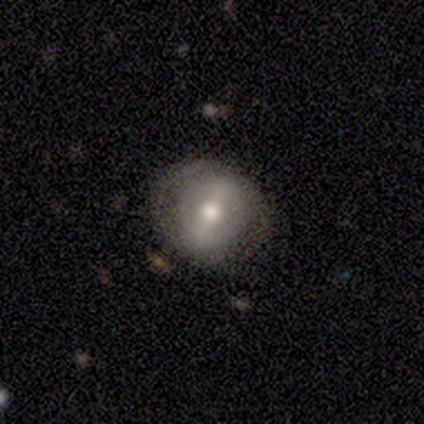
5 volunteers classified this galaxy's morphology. type=smooth (60%); roundness=round (100%); merging=none (60%).